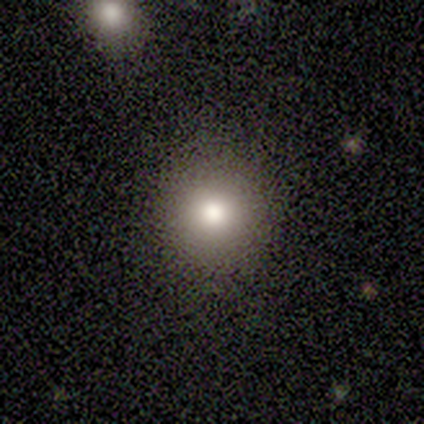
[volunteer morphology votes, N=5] type=smooth (80%); roundness=round (100%); merging=none (100%).